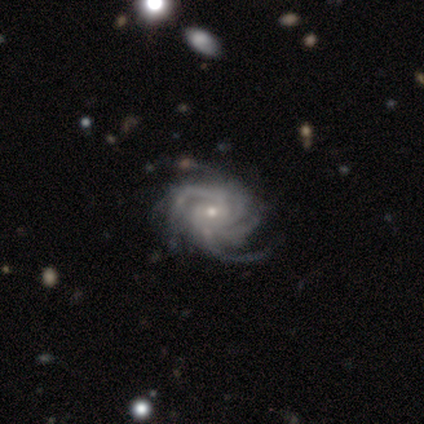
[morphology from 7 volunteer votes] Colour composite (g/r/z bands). It shows a featured or disk galaxy (100%) with no bar (71%), 4 (86%) medium (57%) spiral arms (100%) and a small central bulge (86%). Merging: none (71%).